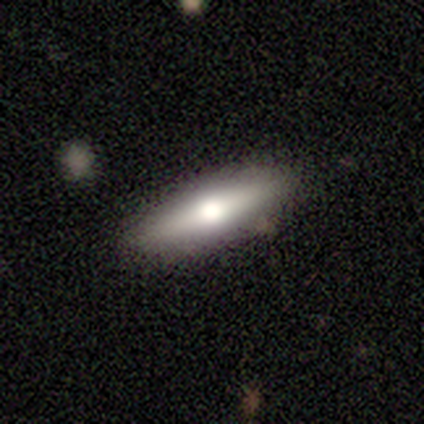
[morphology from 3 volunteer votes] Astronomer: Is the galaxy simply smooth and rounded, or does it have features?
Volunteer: smooth — 67%.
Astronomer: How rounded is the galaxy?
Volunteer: cigar-shaped — 100%.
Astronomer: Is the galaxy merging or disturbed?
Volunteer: none — 67%.